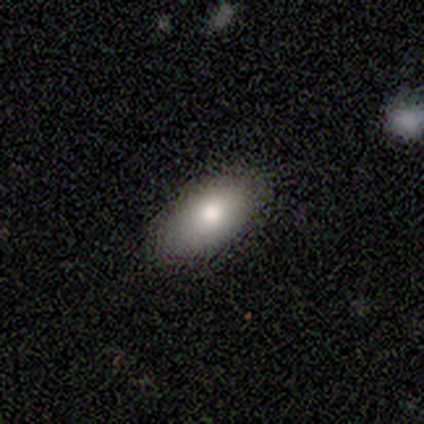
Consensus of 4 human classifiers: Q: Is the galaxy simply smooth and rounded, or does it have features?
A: smooth — 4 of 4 (100%).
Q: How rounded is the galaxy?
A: in between — 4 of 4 (100%).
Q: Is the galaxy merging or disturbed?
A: none — 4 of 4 (100%).